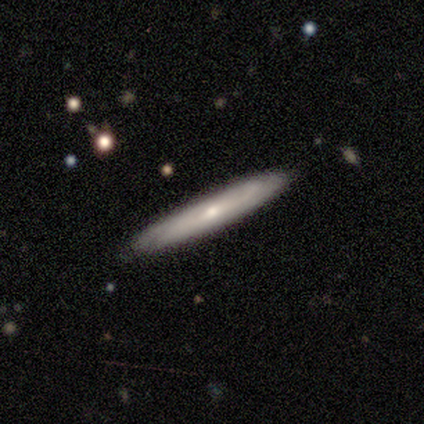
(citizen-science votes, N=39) A featured or disk galaxy (56%) viewed edge-on (86%) with a rounded central bulge (68%). Merging: none (84%).